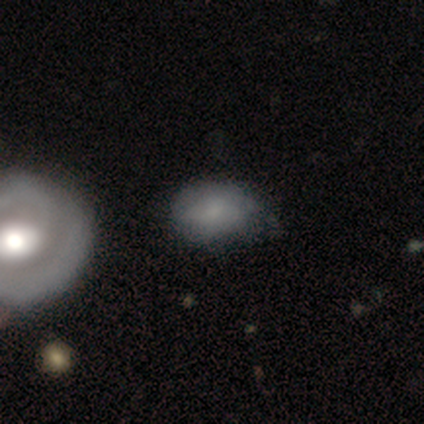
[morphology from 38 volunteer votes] Smooth or featured? 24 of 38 (63%) said smooth. How rounded? 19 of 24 (79%) said in between. Merging? 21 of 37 (57%) said none.